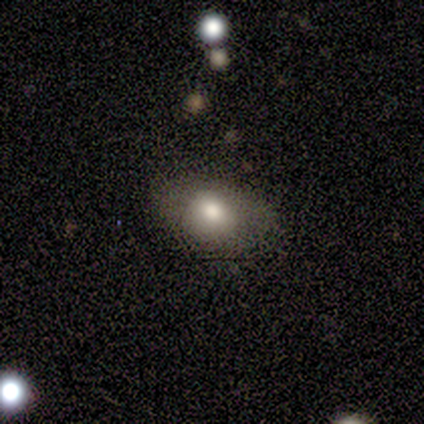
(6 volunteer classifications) Morphology: type=smooth (83%); roundness=in between (100%); merging=none (50%).